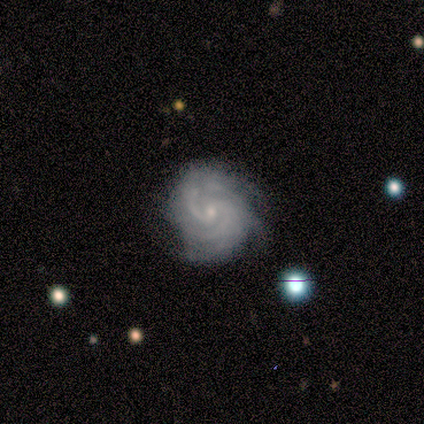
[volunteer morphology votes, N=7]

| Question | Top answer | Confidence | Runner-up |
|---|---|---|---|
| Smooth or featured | featured or disk | 100% | — |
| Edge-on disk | no | 100% | — |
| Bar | weak | 57% | no (43%) |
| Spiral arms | yes | 100% | — |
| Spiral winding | tight | 57% | medium (29%) |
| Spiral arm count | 2 | 71% | 3 (14%) |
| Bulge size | small | 86% | none (14%) |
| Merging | none | 86% | minor disturbance (14%) |